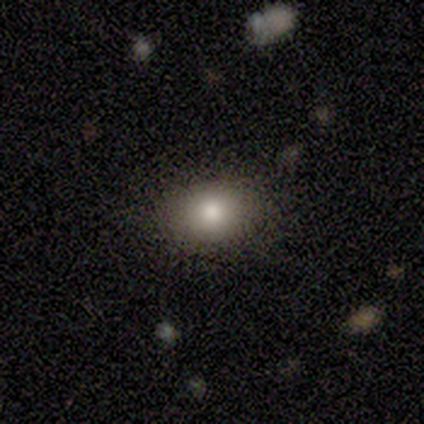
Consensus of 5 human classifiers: Overall: smooth (100%). How rounded: round (60%; in between 40%). Merging: none (80%).